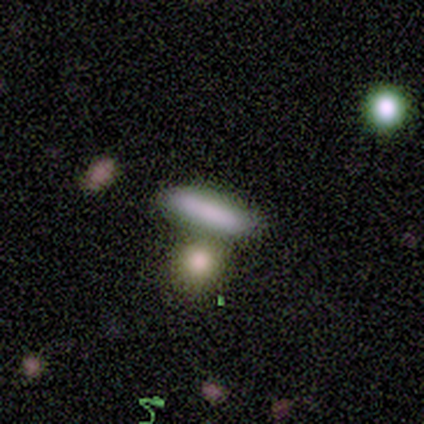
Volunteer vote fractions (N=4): smooth-or-featured: smooth: 100% | featured or disk: 0% | star or artifact: 0%
  how-rounded: cigar-shaped: 75% | in between: 25% | round: 0%
  merging: none: 50% | minor disturbance: 25% | merger: 25% | major disturbance: 0%